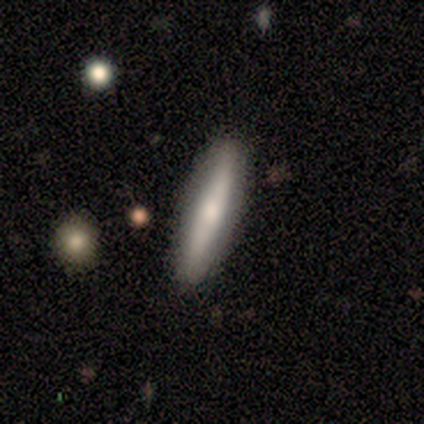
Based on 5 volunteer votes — Smooth or featured? featured or disk (60%)
Edge-on disk? yes (100%)
Edge-on bulge? boxy (33%, tied with none and rounded)
Merging? none (60%)